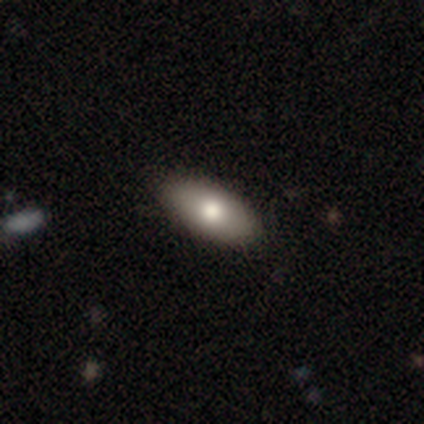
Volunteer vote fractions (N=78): Morphology: type=smooth (82%); roundness=in between (95%); merging=none (45%).